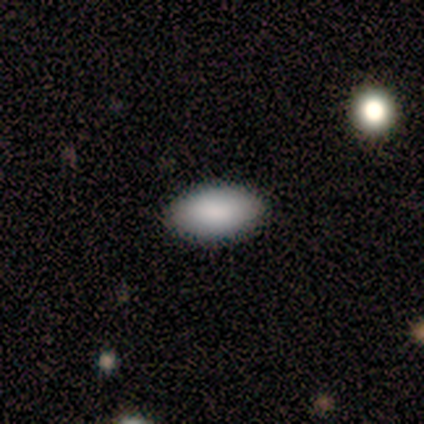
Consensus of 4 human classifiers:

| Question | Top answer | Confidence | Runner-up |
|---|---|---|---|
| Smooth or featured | smooth | 100% | — |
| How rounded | in between | 100% | — |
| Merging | none | 75% | merger (25%) |